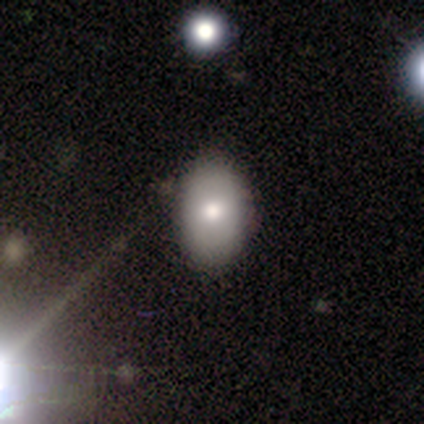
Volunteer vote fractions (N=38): smooth 71%, featured or disk 21%, star or artifact 8%. Down the decision tree: how rounded — in between (81%); merging — none (57%).